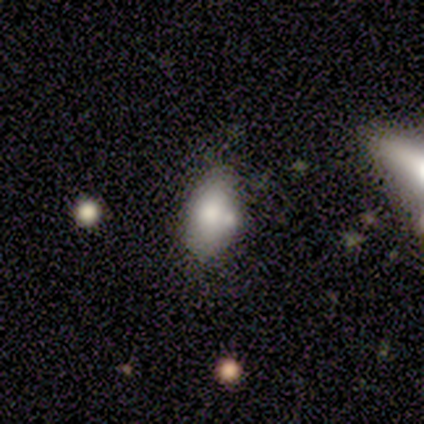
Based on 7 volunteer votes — Smooth or featured?
  - smooth: 57% *
  - star or artifact: 29%
  - featured or disk: 14%
How rounded?
  - in between: 100% *
  - round: 0%
  - cigar-shaped: 0%
Merging?
  - none: 60% *
  - minor disturbance: 20%
  - merger: 20%
  - major disturbance: 0%